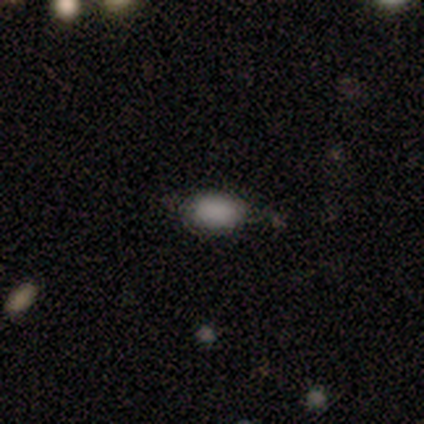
Volunteers were most divided on "smooth or featured": smooth: 50%, featured or disk: 33%, star or artifact: 17%. More confident: how rounded — in between (100%); merging — none (60%).